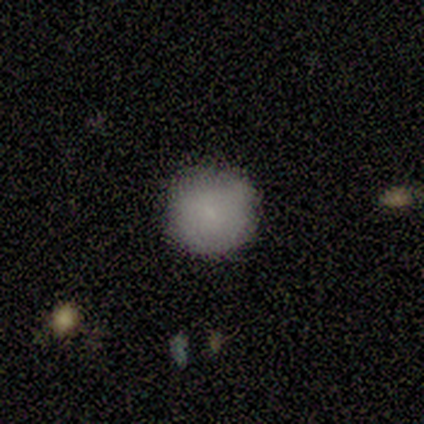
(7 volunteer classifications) A smooth galaxy with no disk features (100%) that is round (100%).

Vote fractions:
- Smooth or featured? smooth: 100% / featured or disk: 0% / star or artifact: 0%
- How rounded? round: 100% / in between: 0% / cigar-shaped: 0%
- Merging? none: 86% / minor disturbance: 14% / major disturbance: 0% / merger: 0%